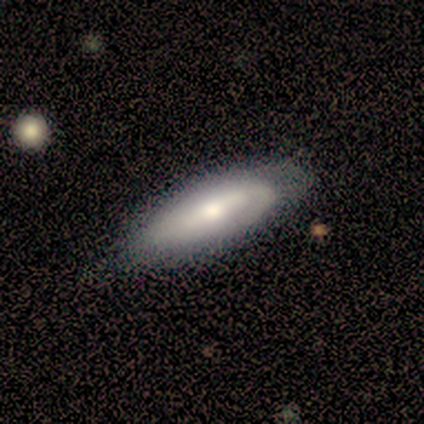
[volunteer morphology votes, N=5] Smooth or featured: smooth — 80% (featured or disk — 20%)
How rounded: in between — 100%
Merging: none — 60% (minor disturbance — 40%)